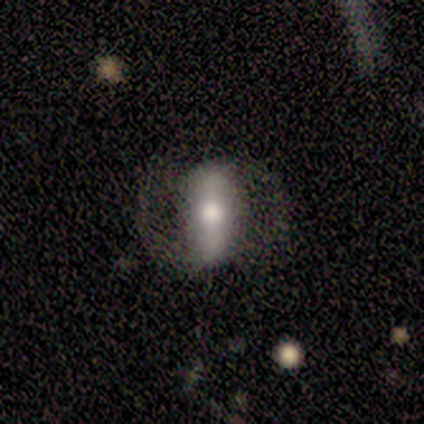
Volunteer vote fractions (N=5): A featured or disk galaxy (80%) with a strong bar (100%), 2 (67%) loose (67%) spiral arms (100%) and a moderate central bulge (100%). Merging: none (80%).